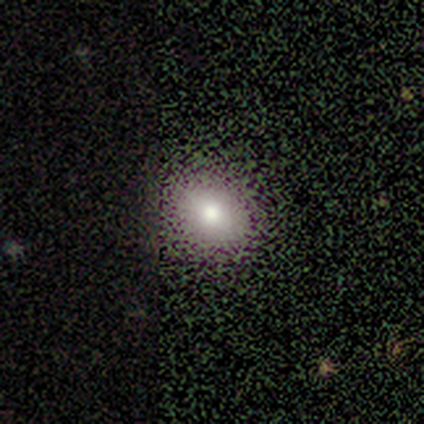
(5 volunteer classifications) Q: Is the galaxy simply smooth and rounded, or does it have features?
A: smooth — 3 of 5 (60%).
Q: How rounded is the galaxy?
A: in between — 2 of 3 (67%).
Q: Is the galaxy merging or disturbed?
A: none — 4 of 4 (100%).